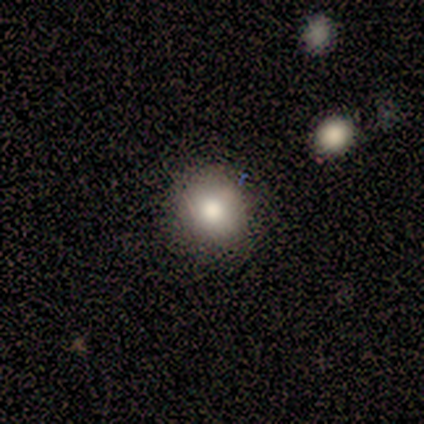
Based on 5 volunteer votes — A smooth galaxy with no disk features (60%) that is round (67%).

Vote fractions:
- Smooth or featured? smooth: 60% / star or artifact: 40% / featured or disk: 0%
- How rounded? round: 67% / in between: 33% / cigar-shaped: 0%
- Merging? none: 100% / minor disturbance: 0% / major disturbance: 0% / merger: 0%